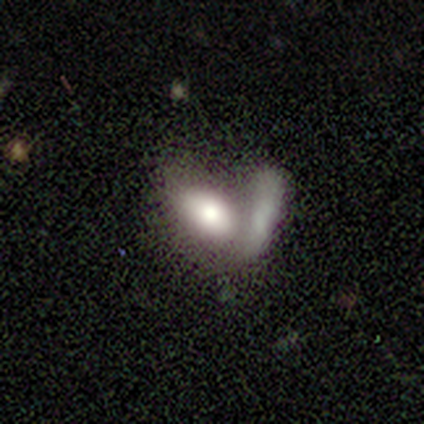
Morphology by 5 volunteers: A smooth galaxy with no disk features (60%) that is in between round and cigar-shaped (100%). Merging: merger (80%).